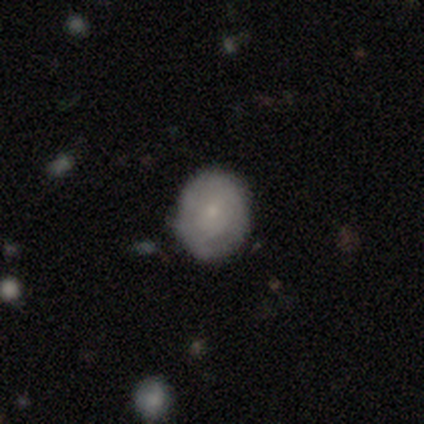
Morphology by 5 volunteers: Smooth or featured? featured or disk (60%)
Edge-on disk? no (100%)
Bar? no (100%)
Spiral arms? yes (67%)
Spiral winding? tight (100%)
Spiral arm count? can't tell (100%)
Bulge size? small (100%)
Merging? none (60%)